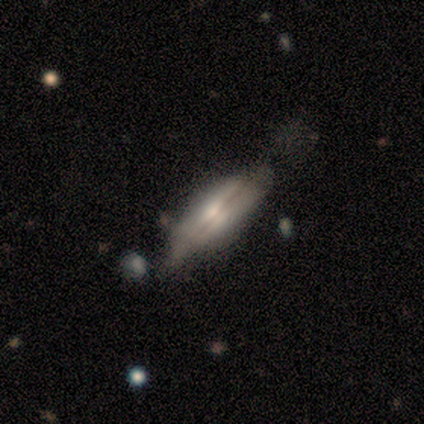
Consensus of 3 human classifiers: Overall: featured or disk (67%; star or artifact 33%). Edge-on disk: yes (50%, tied with no). Edge-on bulge: rounded (100%). Merging: none (50%, tied with minor disturbance).